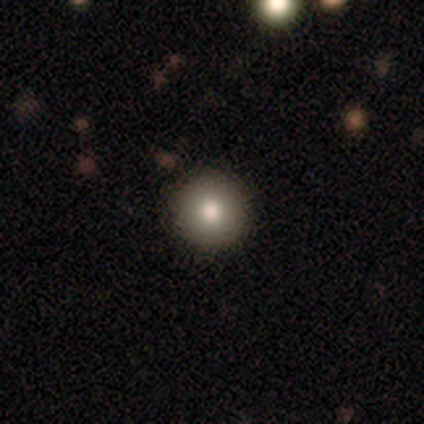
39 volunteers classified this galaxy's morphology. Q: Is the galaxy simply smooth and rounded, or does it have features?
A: smooth — 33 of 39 (85%).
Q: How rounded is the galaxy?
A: round — 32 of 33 (97%).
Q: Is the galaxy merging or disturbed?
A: none — 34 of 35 (97%).